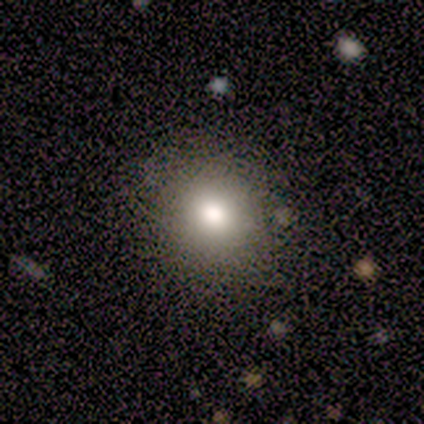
Volunteers were most divided on "smooth or featured": smooth: 60%, star or artifact: 40%, featured or disk: 0%. More confident: how rounded — round (100%); merging — none (100%).